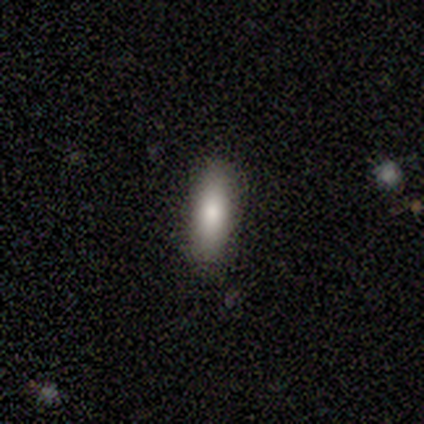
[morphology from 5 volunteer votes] Smooth or featured? smooth (80%)
How rounded? in between (50%)
Merging? none (80%)